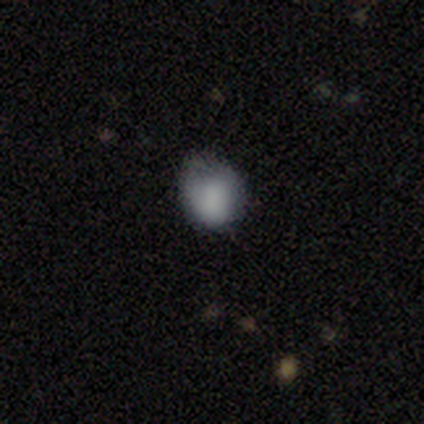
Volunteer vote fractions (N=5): smooth-or-featured: smooth: 100% | featured or disk: 0% | star or artifact: 0%
  how-rounded: round: 80% | in between: 20% | cigar-shaped: 0%
  merging: none: 100% | minor disturbance: 0% | major disturbance: 0% | merger: 0%